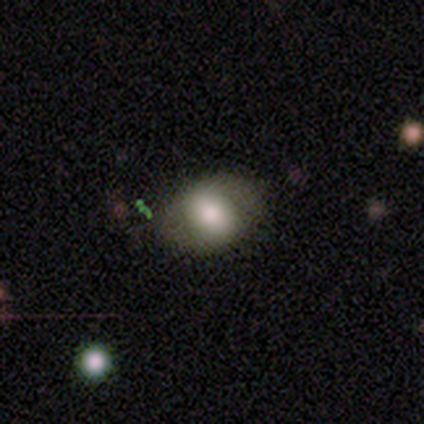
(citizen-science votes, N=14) Smooth or featured? smooth (64%)
How rounded? in between (67%)
Merging? none (69%)